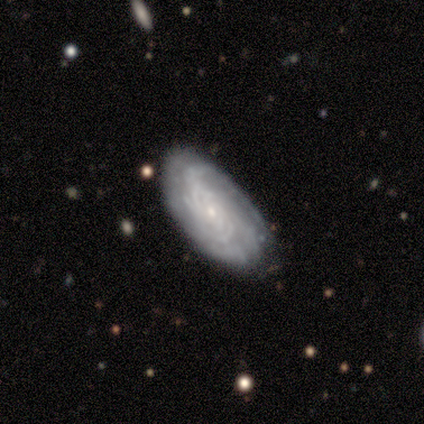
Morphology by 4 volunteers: This appears to be a featured or disk galaxy (75%) with no bar (100%), tight (100%) spiral arms (100%) and a small central bulge (100%). Merging: none (100%).